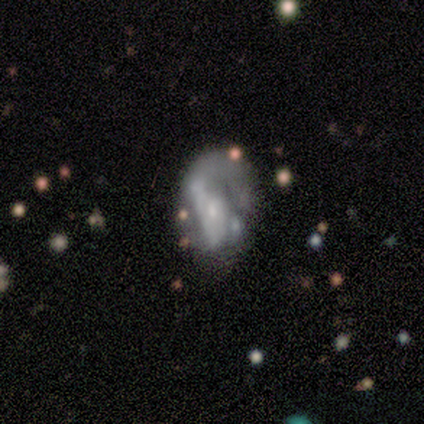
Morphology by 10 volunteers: Smooth or featured? featured or disk (90%)
Edge-on disk? no (89%)
Bar? no (62%)
Spiral arms? yes (88%)
Spiral winding? loose (43%)
Spiral arm count? can't tell (71%)
Bulge size? small (88%)
Merging? major disturbance (50%)